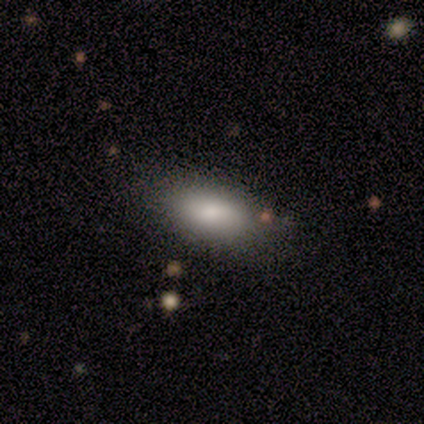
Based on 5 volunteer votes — smooth_or_featured: smooth (p=0.60) [alt: featured or disk p=0.40]
how_rounded: in between (p=1.00)
merging: none (p=1.00)